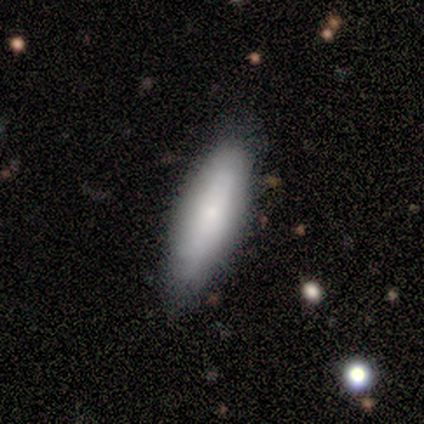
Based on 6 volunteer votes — Q: Smooth or featured?
A: smooth (83%); runner-up: featured or disk (17%)
Q: How rounded?
A: cigar-shaped (60%); runner-up: in between (40%)
Q: Merging?
A: none (67%); runner-up: minor disturbance (33%)